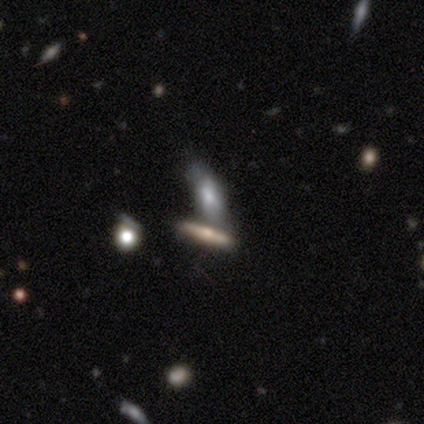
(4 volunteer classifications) A smooth galaxy with no disk features (75%) that is cigar-shaped (100%). Merging: merger (67%).